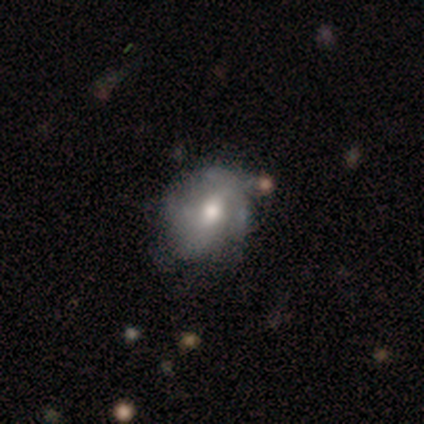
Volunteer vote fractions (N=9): Overall: featured or disk (67%). Edge-on disk: no (100%). Bar: weak (50%; no 33%). Spiral arms: no (67%; yes 33%). Bulge size: moderate (67%). Merging: none (57%; major disturbance 29%).